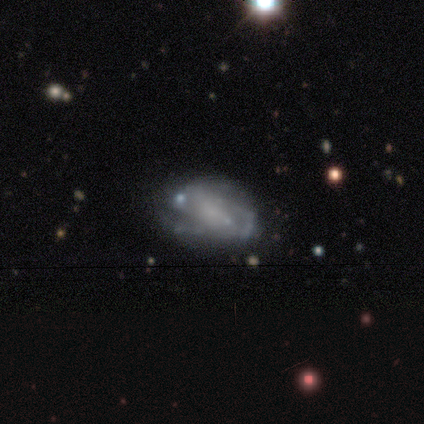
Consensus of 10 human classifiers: Smooth or featured: featured or disk — 50% (smooth — 40%)
Edge-on disk: no — 100%
Bar: no — 60% (weak — 40%)
Spiral arms: yes — 100%
Spiral winding: medium — 60% (tight — 20%)
Spiral arm count: 2 — 40% (tied with can't tell — 40%)
Bulge size: small — 60% (none — 40%)
Merging: none — 56% (minor disturbance — 33%)